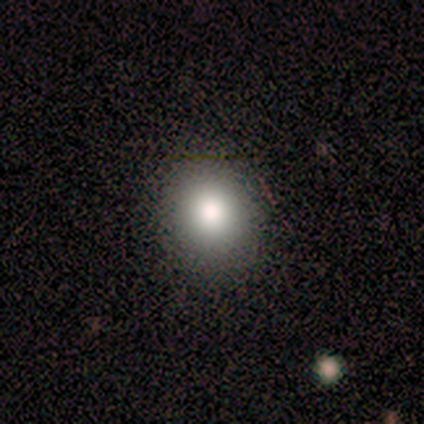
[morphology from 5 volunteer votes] Smooth or featured? smooth (80%)
How rounded? round (100%)
Merging? none (100%)